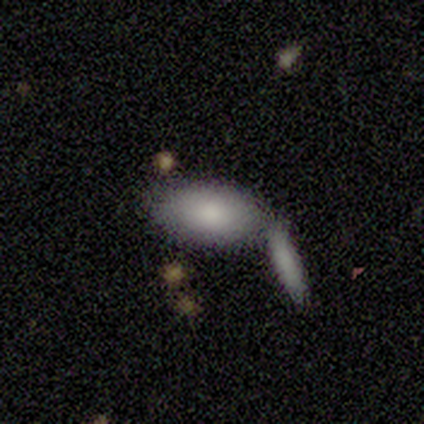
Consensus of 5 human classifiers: smooth_or_featured: smooth (p=1.00)
how_rounded: in between (p=0.80) [alt: round p=0.20]
merging: merger (p=0.80) [alt: major disturbance p=0.20]